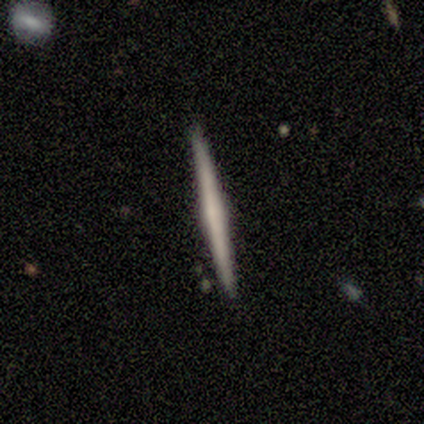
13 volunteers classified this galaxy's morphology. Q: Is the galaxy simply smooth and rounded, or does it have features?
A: featured or disk — 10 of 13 (77%).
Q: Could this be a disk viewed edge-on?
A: yes — 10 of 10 (100%).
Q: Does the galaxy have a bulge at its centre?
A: none — 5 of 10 (50%).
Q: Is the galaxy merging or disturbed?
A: none — 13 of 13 (100%).